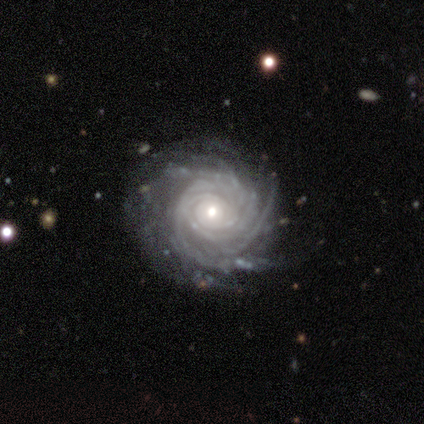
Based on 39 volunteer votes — Smooth or featured? featured or disk (97%)
Edge-on disk? no (95%)
Bar? no (69%)
Spiral arms? yes (100%)
Spiral winding? tight (86%)
Spiral arm count? more than 4 (50%)
Bulge size? moderate (56%)
Merging? none (72%)